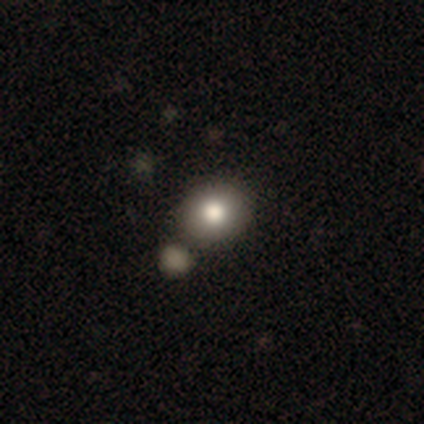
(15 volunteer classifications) A smooth galaxy with no disk features (87%) that is round (62%). Merging: none (67%).